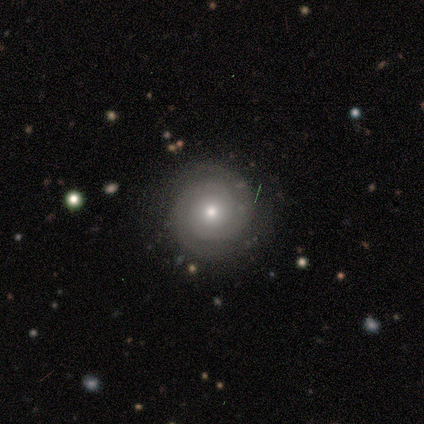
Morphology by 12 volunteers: A featured or disk galaxy (100%) with no bar (75%), 2 (91%) tight (73%) spiral arms (92%) and a small central bulge (58%). Merging: none (100%).